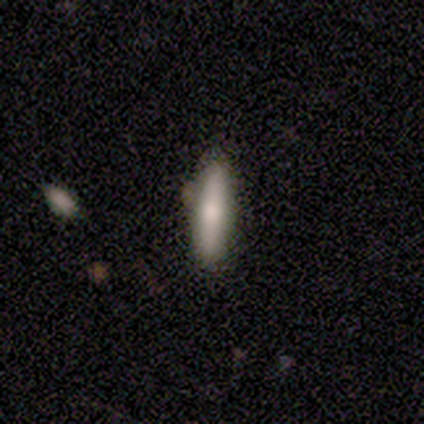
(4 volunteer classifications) Smooth or featured?
  - smooth: 50% * (tied)
  - featured or disk: 50% * (tied)
  - star or artifact: 0%
How rounded?
  - cigar-shaped: 100% *
  - round: 0%
  - in between: 0%
Merging?
  - none: 75% *
  - minor disturbance: 25%
  - major disturbance: 0%
  - merger: 0%